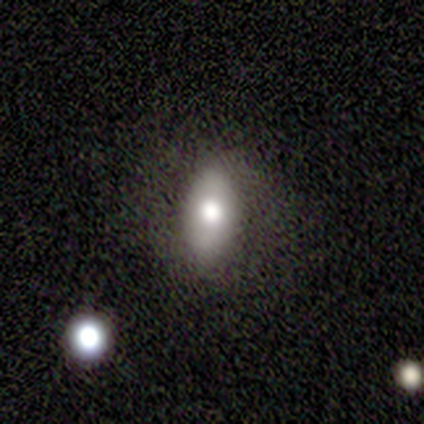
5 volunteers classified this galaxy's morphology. Smooth or featured? 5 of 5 (100%) said smooth. How rounded? 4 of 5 (80%) said in between. Merging? 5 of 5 (100%) said none.